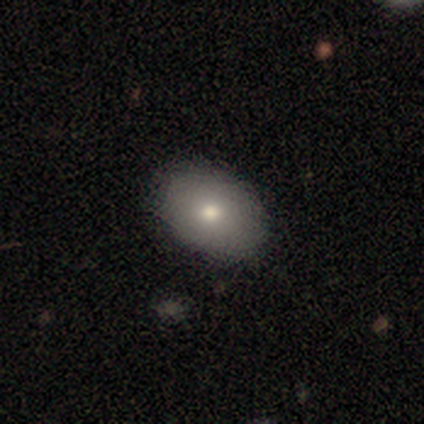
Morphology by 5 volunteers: Smooth or featured? 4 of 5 (80%) said smooth. How rounded? 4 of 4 (100%) said in between. Merging? 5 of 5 (100%) said none.